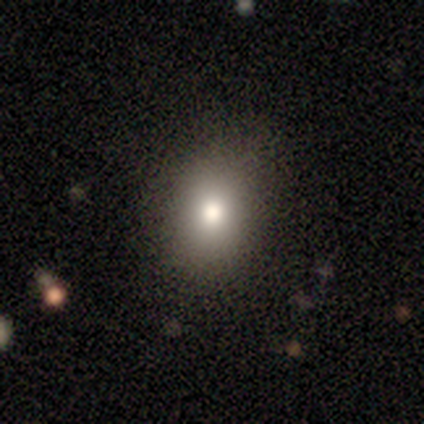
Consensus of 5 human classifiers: Overall: star or artifact (60%; smooth 20%).